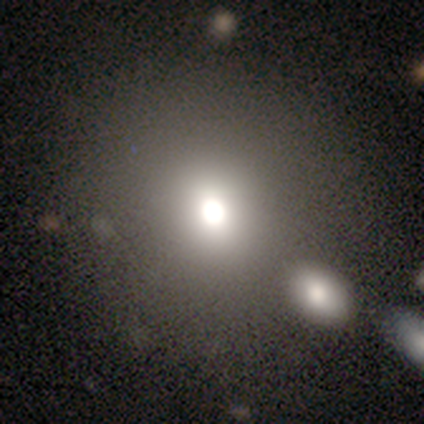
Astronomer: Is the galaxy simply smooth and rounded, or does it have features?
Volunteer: smooth — 60% (runner-up: star or artifact, 40%).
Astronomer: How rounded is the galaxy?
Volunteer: round — 100%.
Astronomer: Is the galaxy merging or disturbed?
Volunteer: none — 67%.